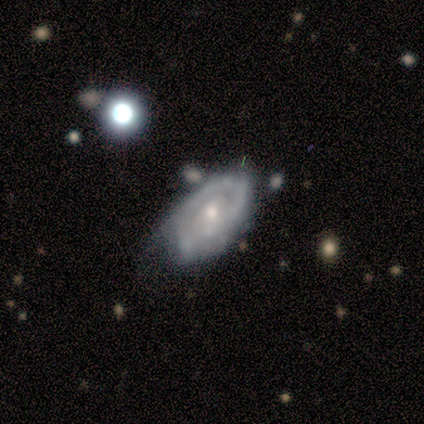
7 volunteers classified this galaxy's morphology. A featured or disk galaxy (57%) with no bar (67%), 2 (100%) tight (100%) spiral arms (67%) and a small central bulge (100%).

Vote fractions:
- Smooth or featured? featured or disk: 57% / smooth: 43% / star or artifact: 0%
- Edge-on disk? no: 75% / yes: 25%
- Bar? no: 67% / weak: 33% / strong: 0%
- Spiral arms? yes: 67% / no: 33%
- Spiral winding? tight: 100% / medium: 0% / loose: 0%
- Spiral arm count? 2: 100% / 1: 0% / 3: 0% / 4: 0% / more than 4: 0% / can't tell: 0%
- Bulge size? small: 100% / dominant: 0% / large: 0% / moderate: 0% / none: 0%
- Merging? none: 100% / minor disturbance: 0% / major disturbance: 0% / merger: 0%